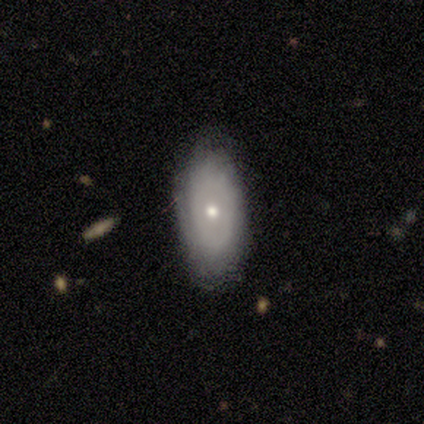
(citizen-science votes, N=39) Smooth or featured: featured or disk — 59% (smooth — 36%)
Edge-on disk: no — 96% (yes — 4%)
Bar: no — 100%
Spiral arms: no — 55% (yes — 45%)
Bulge size: small — 50% (moderate — 41%)
Merging: none — 86% (minor disturbance — 11%)